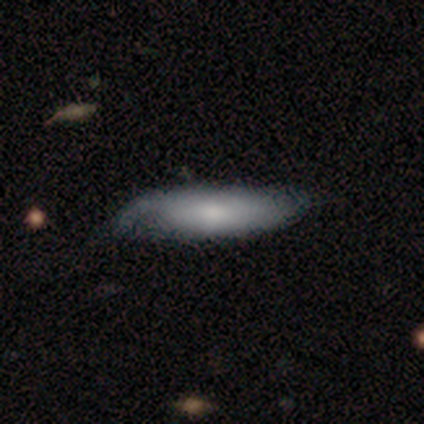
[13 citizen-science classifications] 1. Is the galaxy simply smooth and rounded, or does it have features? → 92% smooth, 8% featured or disk, 0% star or artifact.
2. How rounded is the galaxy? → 50% in between, 42% cigar-shaped, 8% round.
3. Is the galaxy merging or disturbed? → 46% none (tied), 46% minor disturbance (tied), 8% major disturbance, 0% merger.